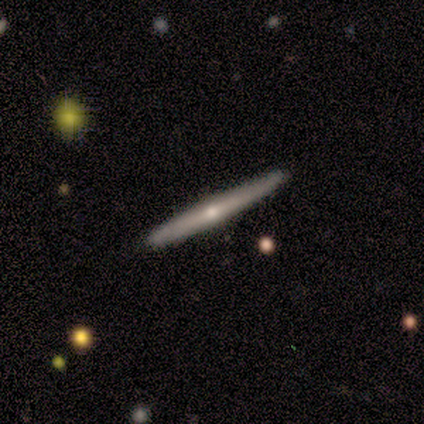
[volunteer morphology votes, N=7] This is clearly a featured or disk galaxy (86%). It is clearly viewed edge-on (100%). Edge-on bulge: clearly rounded (83%). Merging: clearly none (100%).